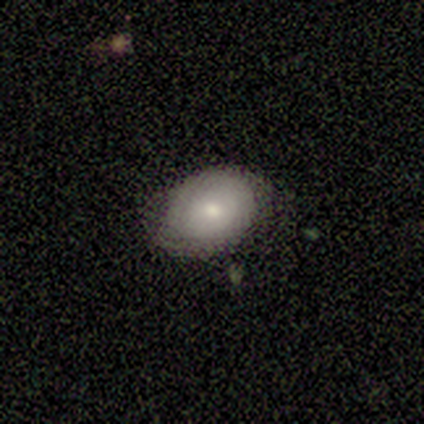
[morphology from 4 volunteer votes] Volunteers were most divided on "smooth or featured" (2-way tie): smooth: 50%, featured or disk: 50%, star or artifact: 0%. More confident: how rounded — in between (100%); merging — none (100%).